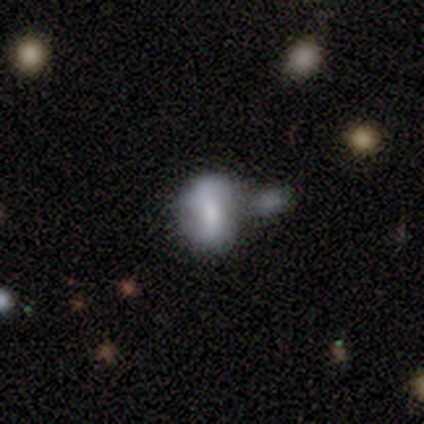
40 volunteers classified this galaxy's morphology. A smooth galaxy with no disk features (65%) that is in between round and cigar-shaped (77%). Merging: none (43%).